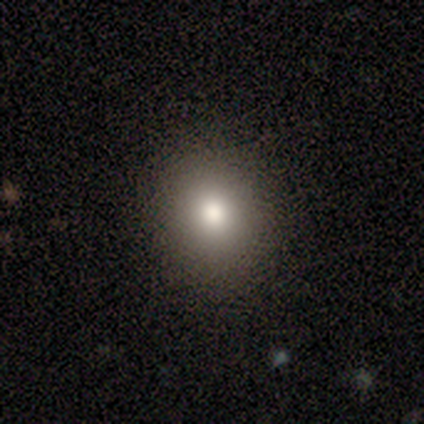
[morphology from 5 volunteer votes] Q: Smooth or featured?
A: smooth (60%); runner-up: star or artifact (40%)
Q: How rounded?
A: round (100%)
Q: Merging?
A: none (100%)